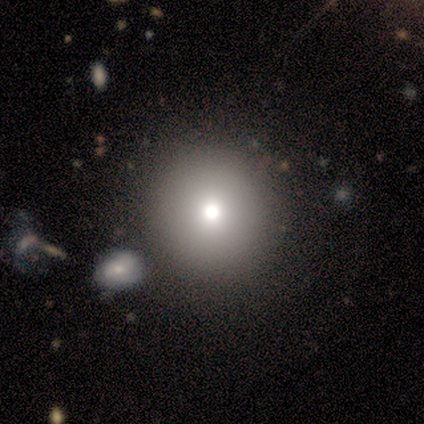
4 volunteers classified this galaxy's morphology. Smooth or featured? smooth (75%)
How rounded? round (100%)
Merging? none (100%)